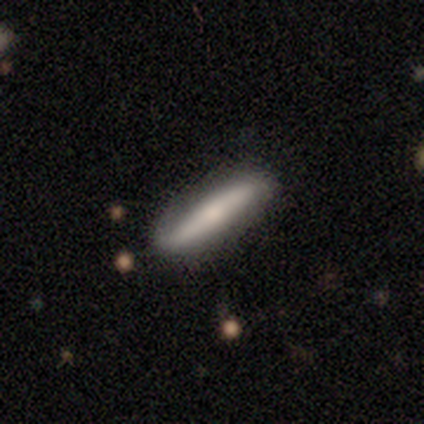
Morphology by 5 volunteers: type=smooth (80%); roundness=cigar-shaped (75%); merging=none (100%).